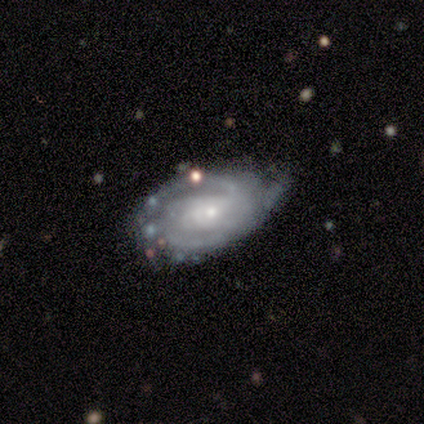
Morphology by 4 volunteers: Volunteers were most divided on "spiral winding" (2-way tie): tight: 50%, medium: 50%, loose: 0%; "spiral arm count" (2-way tie): 2: 50%, 3: 50%, 1: 0%, 4: 0%, more than 4: 0%, can't tell: 0%; "bulge size" (2-way tie): moderate: 50%, small: 50%, dominant: 0%, large: 0%, none: 0%. More confident: smooth or featured — featured or disk (100%); edge-on disk — no (100%); spiral arms — yes (100%); bar — weak (75%); merging — minor disturbance (75%).